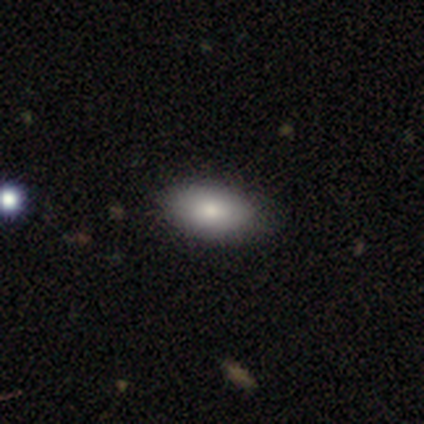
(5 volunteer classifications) Q: Smooth or featured?
A: smooth (100%)
Q: How rounded?
A: in between (100%)
Q: Merging?
A: none (80%); runner-up: minor disturbance (20%)